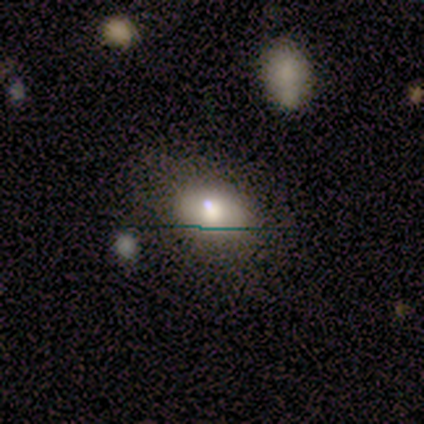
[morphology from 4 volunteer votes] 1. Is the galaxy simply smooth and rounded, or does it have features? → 75% smooth, 25% featured or disk, 0% star or artifact.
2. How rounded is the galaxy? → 100% in between, 0% round, 0% cigar-shaped.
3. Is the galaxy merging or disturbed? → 100% none, 0% minor disturbance, 0% major disturbance, 0% merger.